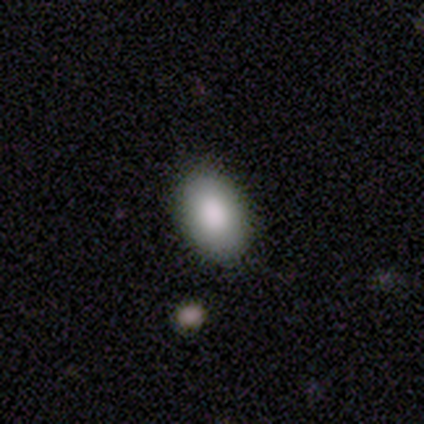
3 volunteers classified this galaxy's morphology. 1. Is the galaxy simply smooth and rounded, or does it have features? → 100% smooth, 0% featured or disk, 0% star or artifact.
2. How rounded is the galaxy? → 100% in between, 0% round, 0% cigar-shaped.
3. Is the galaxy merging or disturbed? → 100% none, 0% minor disturbance, 0% major disturbance, 0% merger.